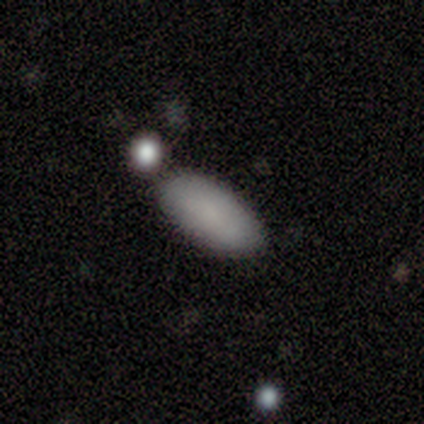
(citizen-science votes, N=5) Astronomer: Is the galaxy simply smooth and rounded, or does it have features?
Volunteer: smooth — 60%.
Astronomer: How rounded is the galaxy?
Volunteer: in between — 100%.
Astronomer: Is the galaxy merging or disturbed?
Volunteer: none — 75%.